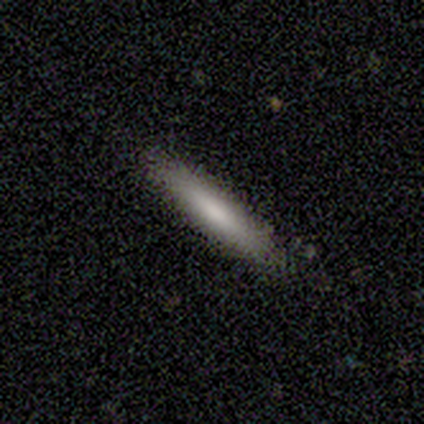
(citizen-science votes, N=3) smooth_or_featured: featured or disk (p=0.67) [alt: smooth p=0.33]
disk_edge_on: yes (p=1.00)
edge_on_bulge: none (p=1.00)
merging: none (p=1.00)